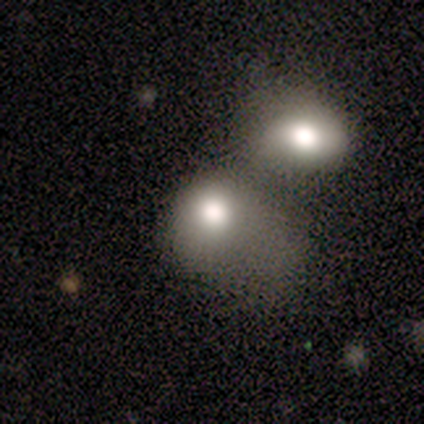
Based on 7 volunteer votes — Q: Smooth or featured?
A: smooth (86%); runner-up: featured or disk (14%)
Q: How rounded?
A: in between (67%); runner-up: round (33%)
Q: Merging?
A: merger (57%); runner-up: major disturbance (29%)